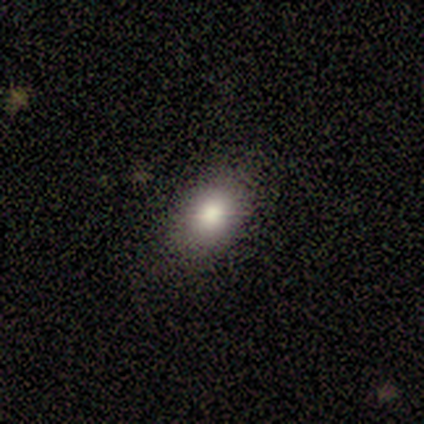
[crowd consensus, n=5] Q: Smooth or featured?
A: smooth (100%)
Q: How rounded?
A: in between (80%); runner-up: round (20%)
Q: Merging?
A: none (80%); runner-up: minor disturbance (20%)